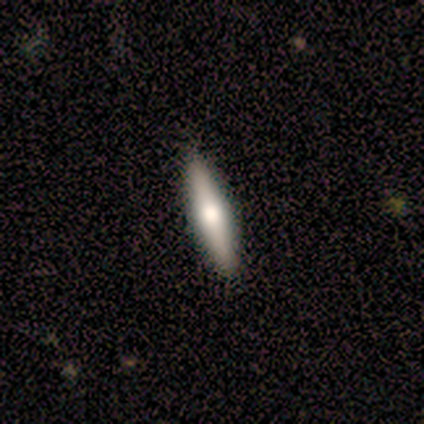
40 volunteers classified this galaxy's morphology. Q: Smooth or featured?
A: smooth (60%); runner-up: featured or disk (38%)
Q: How rounded?
A: cigar-shaped (88%); runner-up: in between (12%)
Q: Merging?
A: none (90%); runner-up: minor disturbance (8%)